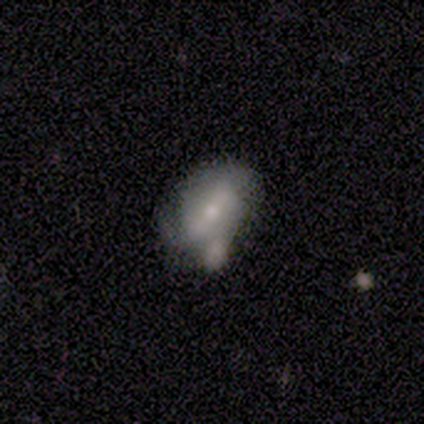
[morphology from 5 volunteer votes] A featured or disk galaxy (80%) with a weak bar (100%), no spiral arms (67%) and a small central bulge (100%). Merging: major disturbance (60%).